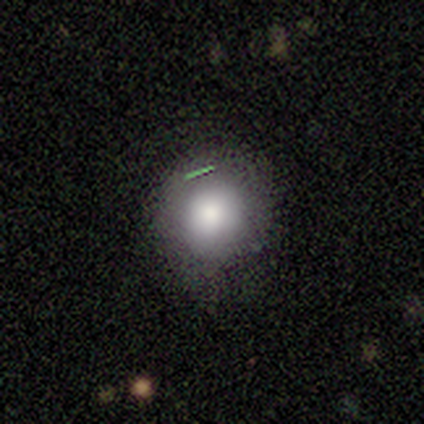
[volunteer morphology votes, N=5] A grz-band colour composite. It shows a smooth galaxy with no disk features (100%) that is round (100%). Merging: none (60%).